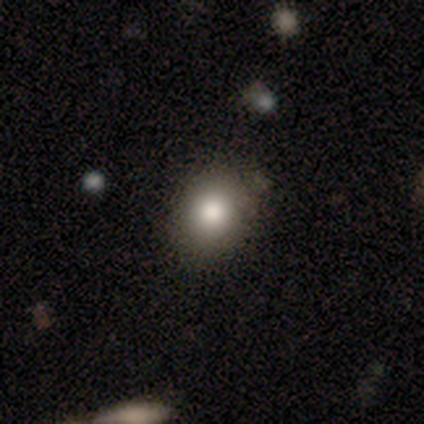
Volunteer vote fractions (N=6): Smooth or featured: smooth — 67% (featured or disk — 33%)
How rounded: round — 50% (tied with in between — 50%)
Merging: none — 100%